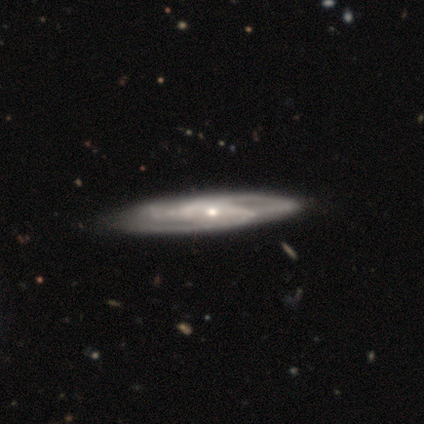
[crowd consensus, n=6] This is possibly a featured or disk galaxy (50%). It is likely not viewed edge-on (67%). Bar: clearly no (100%). Spiral arm pattern: clearly yes (100%). Spiral arm count: clearly 3 (100%). Spiral winding: possibly tight (50%, tied with medium). Central bulge: clearly moderate (100%). Merging: clearly none (100%).